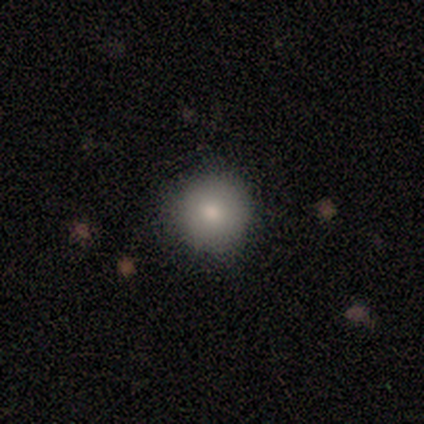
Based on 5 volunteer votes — Smooth or featured? 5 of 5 (100%) said smooth. How rounded? 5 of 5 (100%) said round. Merging? 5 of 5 (100%) said none.